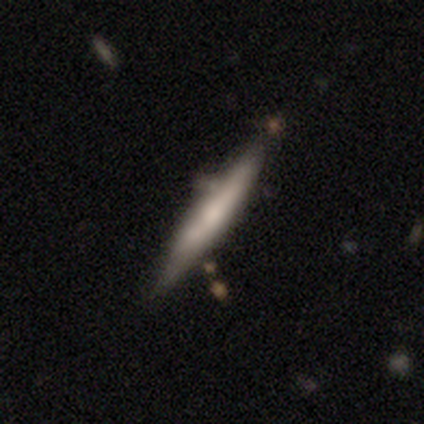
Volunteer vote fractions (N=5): A featured or disk galaxy (60%) viewed edge-on (100%) with a rounded central bulge (67%).

Vote fractions:
- Smooth or featured? featured or disk: 60% / smooth: 40% / star or artifact: 0%
- Edge-on disk? yes: 100% / no: 0%
- Edge-on bulge? rounded: 67% / none: 33% / boxy: 0%
- Merging? none: 100% / minor disturbance: 0% / major disturbance: 0% / merger: 0%